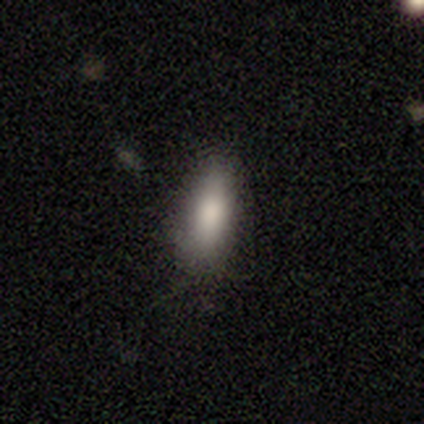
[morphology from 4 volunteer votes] Volunteers were most divided on "merging" (2-way tie): none: 50%, minor disturbance: 50%, major disturbance: 0%, merger: 0%. More confident: smooth or featured — smooth (100%); how rounded — in between (50%).